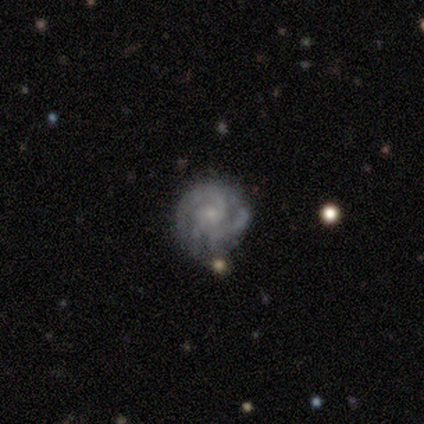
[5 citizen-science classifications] smooth-or-featured: featured or disk: 60% | smooth: 40% | star or artifact: 0%
  disk-edge-on: no: 100% | yes: 0%
    bar: weak: 67% | no: 33% | strong: 0%
    has-spiral-arms: yes: 100% | no: 0%
      spiral-winding: tight: 67% | medium: 33% | loose: 0%
      spiral-arm-count: 2: 33% (tied) | 3: 33% (tied) | 4: 33% (tied) | 1: 0% | more than 4: 0% | can't tell: 0%
    bulge-size: small: 67% | moderate: 33% | dominant: 0% | large: 0% | none: 0%
  merging: none: 80% | major disturbance: 20% | minor disturbance: 0% | merger: 0%